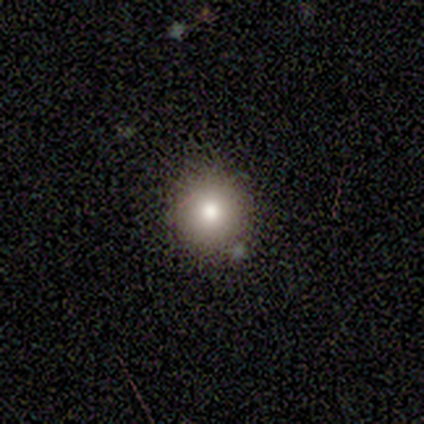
Q: Smooth or featured?
A: smooth (80%); runner-up: featured or disk (20%)
Q: How rounded?
A: round (100%)
Q: Merging?
A: none (100%)